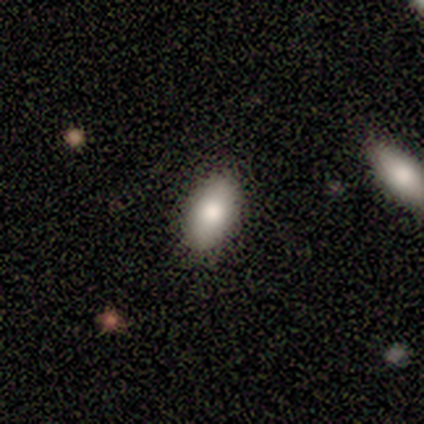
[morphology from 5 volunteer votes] A smooth galaxy with no disk features (100%) that is in between round and cigar-shaped (100%).

Vote fractions:
- Smooth or featured? smooth: 100% / featured or disk: 0% / star or artifact: 0%
- How rounded? in between: 100% / round: 0% / cigar-shaped: 0%
- Merging? none: 100% / minor disturbance: 0% / major disturbance: 0% / merger: 0%